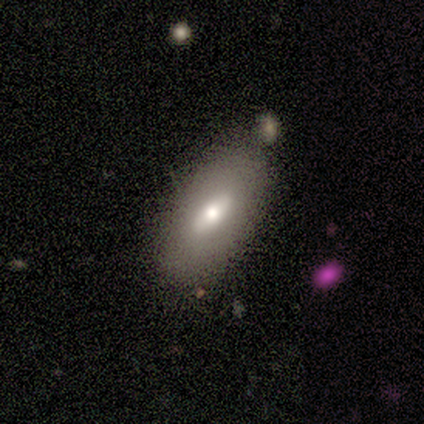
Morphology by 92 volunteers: Smooth or featured?
  - smooth: 58% *
  - featured or disk: 38%
  - star or artifact: 4%
How rounded?
  - in between: 92% *
  - round: 4%
  - cigar-shaped: 4%
Merging?
  - none: 68% *
  - minor disturbance: 24%
  - major disturbance: 5%
  - merger: 3%